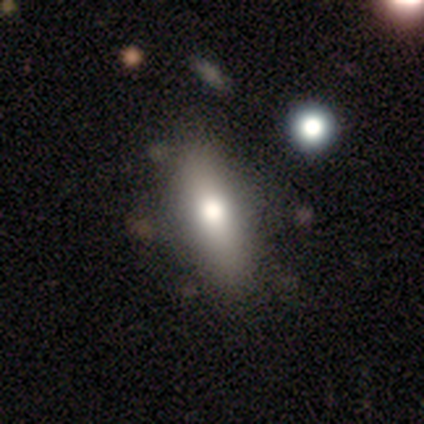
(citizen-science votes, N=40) smooth 88%, featured or disk 10%, star or artifact 2%. Down the decision tree: how rounded — in between (69%); merging — none (64%).